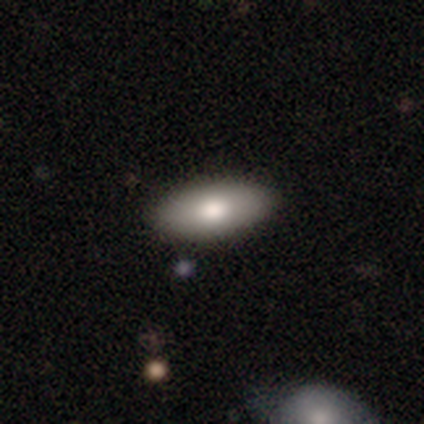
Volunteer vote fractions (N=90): This appears to be a smooth galaxy with no disk features (81%) that is in between round and cigar-shaped (88%). Merging: none (88%).